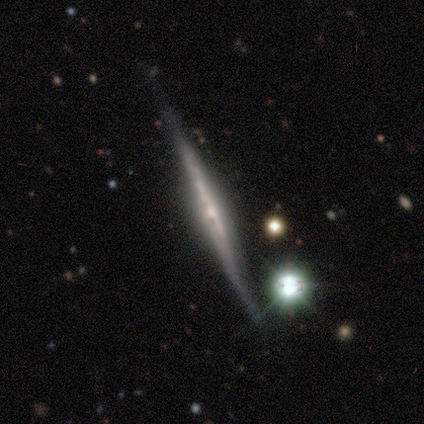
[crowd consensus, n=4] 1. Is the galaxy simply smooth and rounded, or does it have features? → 75% featured or disk, 25% smooth, 0% star or artifact.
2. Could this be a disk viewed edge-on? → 100% yes, 0% no.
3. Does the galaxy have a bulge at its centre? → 67% rounded, 33% none, 0% boxy.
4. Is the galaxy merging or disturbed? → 100% none, 0% minor disturbance, 0% major disturbance, 0% merger.